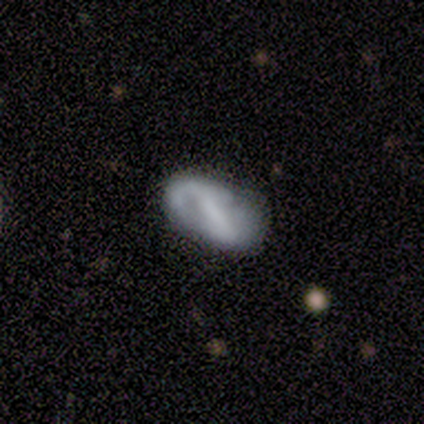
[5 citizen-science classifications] A featured or disk galaxy (80%) with a strong bar (100%), 1 (67%) loose (67%) spiral arms (100%) and a moderate central bulge (33%, tied with small and none).

Vote fractions:
- Smooth or featured? featured or disk: 80% / smooth: 20% / star or artifact: 0%
- Edge-on disk? no: 75% / yes: 25%
- Bar? strong: 100% / weak: 0% / no: 0%
- Spiral arms? yes: 100% / no: 0%
- Spiral winding? loose: 67% / medium: 33% / tight: 0%
- Spiral arm count? 1: 67% / 2: 33% / 3: 0% / 4: 0% / more than 4: 0% / can't tell: 0%
- Bulge size? moderate: 33% (tied) / small: 33% (tied) / none: 33% (tied) / dominant: 0% / large: 0%
- Merging? none: 60% / minor disturbance: 20% / merger: 20% / major disturbance: 0%